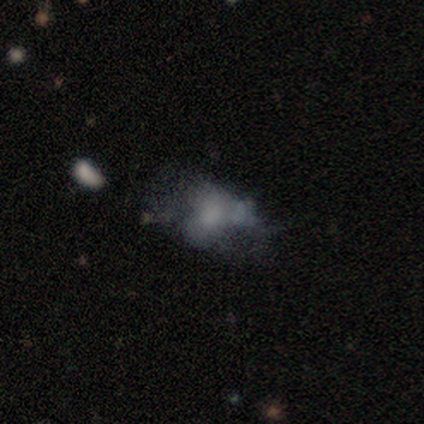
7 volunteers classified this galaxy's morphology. Overall: featured or disk (43%; smooth 29%). Edge-on disk: no (100%). Bar: no (100%). Spiral arms: no (100%). Bulge size: moderate (33%, tied with small and none). Merging: minor disturbance (40%; none 20%).